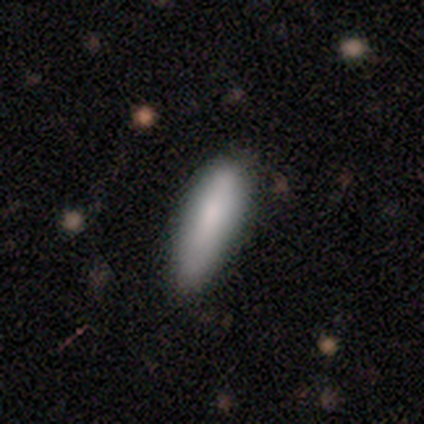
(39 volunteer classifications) A smooth galaxy with no disk features (79%) that is cigar-shaped (52%).

Vote fractions:
- Smooth or featured? smooth: 79% / featured or disk: 15% / star or artifact: 5%
- How rounded? cigar-shaped: 52% / in between: 48% / round: 0%
- Merging? none: 73% / minor disturbance: 24% / merger: 3% / major disturbance: 0%